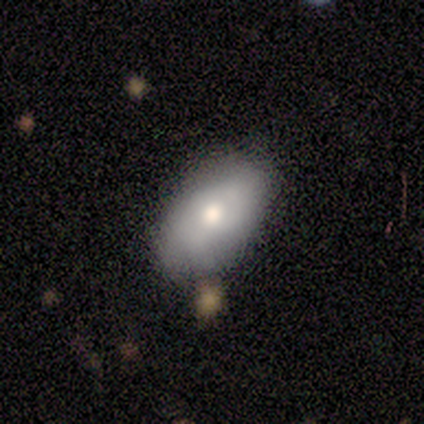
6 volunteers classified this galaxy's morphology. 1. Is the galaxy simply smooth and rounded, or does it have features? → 50% smooth (tied), 50% featured or disk (tied), 0% star or artifact.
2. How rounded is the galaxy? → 100% in between, 0% round, 0% cigar-shaped.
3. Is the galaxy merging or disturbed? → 67% none, 17% minor disturbance, 17% major disturbance, 0% merger.